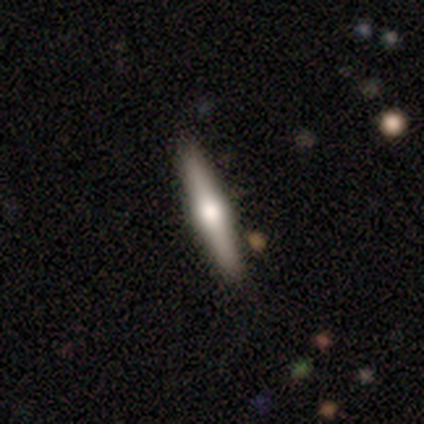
Q: Smooth or featured?
A: featured or disk (65%); runner-up: smooth (32%)
Q: Edge-on disk?
A: yes (100%)
Q: Edge-on bulge?
A: rounded (88%); runner-up: boxy (8%)
Q: Merging?
A: none (97%); runner-up: minor disturbance (3%)